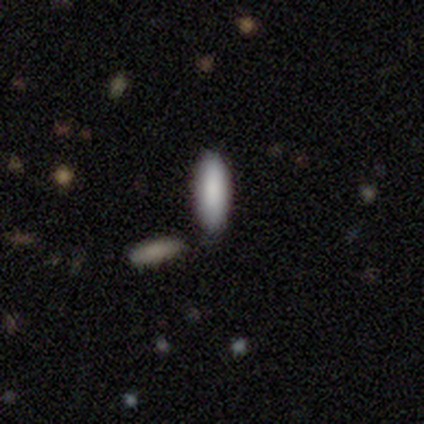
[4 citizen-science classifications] smooth_or_featured: smooth (p=1.00)
how_rounded: cigar-shaped (p=0.75) [alt: in between p=0.25]
merging: none (p=1.00)